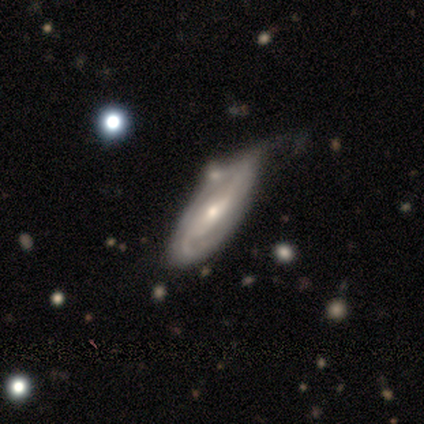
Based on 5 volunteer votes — Overall: featured or disk (100%). Edge-on disk: no (100%). Bar: no (60%; strong 20%). Spiral arms: yes (80%). Spiral arm count: 2 (50%; 3 25%). Spiral winding: tight (50%, tied with medium). Bulge size: small (60%; moderate 40%). Merging: none (60%; minor disturbance 40%).